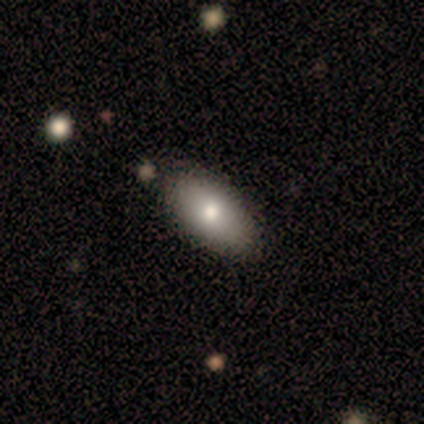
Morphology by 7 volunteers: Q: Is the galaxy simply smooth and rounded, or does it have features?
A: smooth — 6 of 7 (86%).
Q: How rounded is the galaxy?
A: in between — 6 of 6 (100%).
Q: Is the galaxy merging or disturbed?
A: none — 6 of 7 (86%).